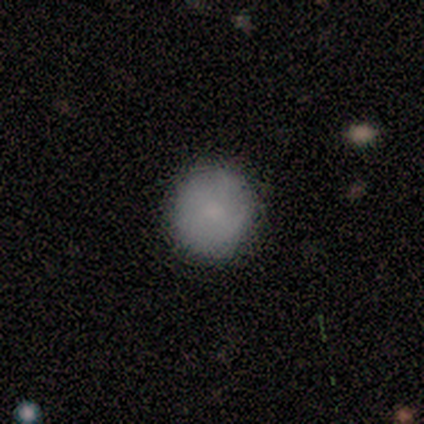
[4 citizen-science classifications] Q: Smooth or featured?
A: smooth (100%)
Q: How rounded?
A: round (100%)
Q: Merging?
A: none (100%)